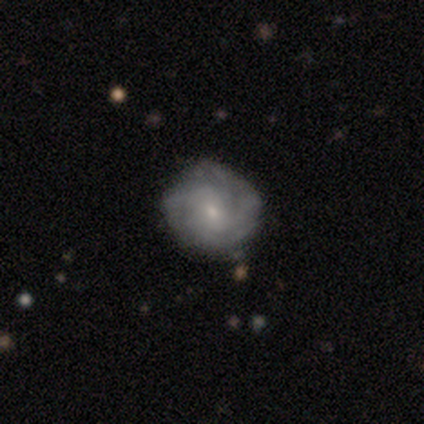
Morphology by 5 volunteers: smooth_or_featured: featured or disk (p=0.80) [alt: star or artifact p=0.20]
disk_edge_on: no (p=1.00)
bar: no (p=1.00)
has_spiral_arms: yes (p=0.75) [alt: no p=0.25]
spiral_winding: medium (p=0.67) [alt: tight p=0.33]
spiral_arm_count: can't tell (p=0.67) [alt: 3 p=0.33]
bulge_size: small (p=0.75) [alt: moderate p=0.25]
merging: none (p=1.00)